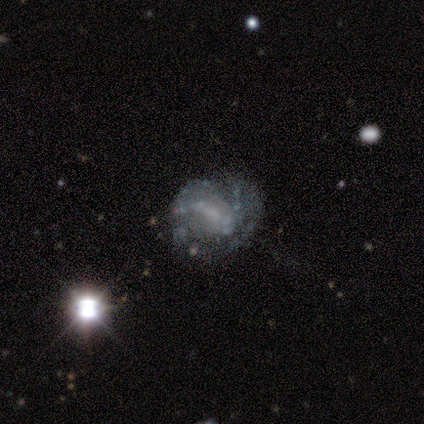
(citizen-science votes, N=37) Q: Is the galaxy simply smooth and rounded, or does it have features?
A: featured or disk — 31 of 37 (84%).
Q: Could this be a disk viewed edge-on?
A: no — 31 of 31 (100%).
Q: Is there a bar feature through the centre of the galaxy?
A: weak — 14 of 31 (45%).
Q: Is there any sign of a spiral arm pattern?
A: yes — 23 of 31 (74%).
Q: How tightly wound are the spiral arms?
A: tight — 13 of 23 (57%).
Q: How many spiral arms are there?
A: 2 — 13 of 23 (57%).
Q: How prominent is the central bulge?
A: none — 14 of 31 (45%).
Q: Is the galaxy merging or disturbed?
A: none — 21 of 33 (64%).